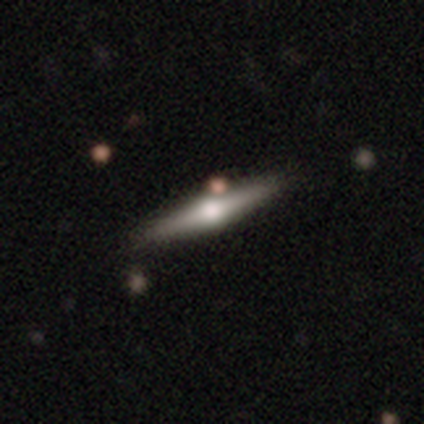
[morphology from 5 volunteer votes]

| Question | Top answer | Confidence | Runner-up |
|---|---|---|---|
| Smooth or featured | featured or disk | 100% | — |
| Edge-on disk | yes | 100% | — |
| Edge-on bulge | rounded | 100% | — |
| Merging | none | 100% | — |